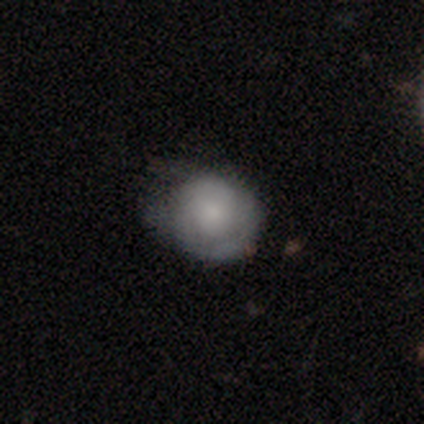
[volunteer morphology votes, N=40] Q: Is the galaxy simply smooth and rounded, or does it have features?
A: smooth — 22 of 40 (55%).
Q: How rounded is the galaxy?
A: round — 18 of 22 (82%).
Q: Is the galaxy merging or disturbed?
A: none — 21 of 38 (55%).